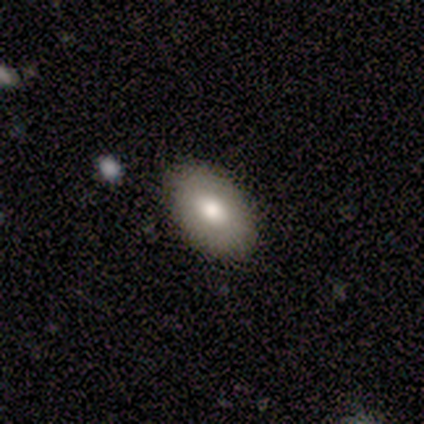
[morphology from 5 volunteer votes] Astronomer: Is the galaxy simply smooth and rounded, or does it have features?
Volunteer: smooth — 100%.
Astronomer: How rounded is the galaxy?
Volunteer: in between — 80%.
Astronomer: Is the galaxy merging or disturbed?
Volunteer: none — 100%.